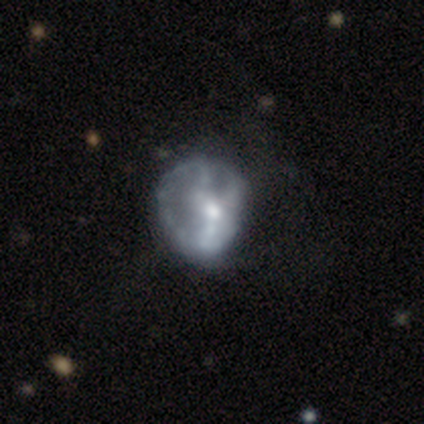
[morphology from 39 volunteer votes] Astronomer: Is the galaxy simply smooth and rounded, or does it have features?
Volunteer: featured or disk — 72%.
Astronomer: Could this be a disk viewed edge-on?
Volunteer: no — 96%.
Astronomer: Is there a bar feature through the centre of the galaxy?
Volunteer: no — 70%.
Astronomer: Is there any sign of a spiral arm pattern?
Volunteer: no — 70%.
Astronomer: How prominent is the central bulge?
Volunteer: moderate — 59% (runner-up: small, 37%).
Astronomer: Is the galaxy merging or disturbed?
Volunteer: minor disturbance — 34% (runner-up: major disturbance, 26%).